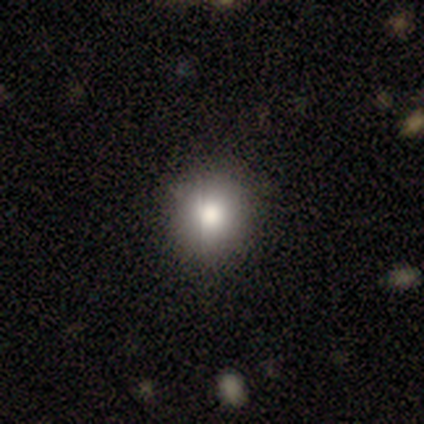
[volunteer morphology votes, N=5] Smooth or featured: smooth — 100%
How rounded: round — 100%
Merging: none — 100%